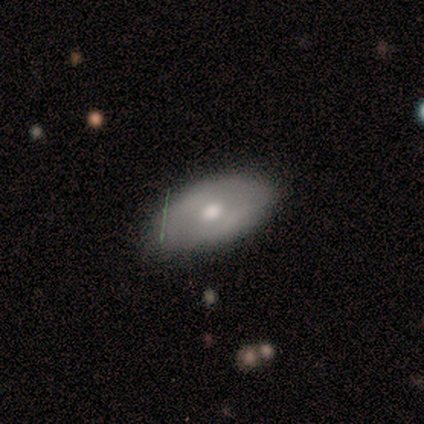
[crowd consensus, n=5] Q: Smooth or featured?
A: featured or disk (60%); runner-up: smooth (20%)
Q: Edge-on disk?
A: no (67%); runner-up: yes (33%)
Q: Bar?
A: no (100%)
Q: Spiral arms?
A: yes (100%)
Q: Spiral winding?
A: tight (50%); tied with: medium (50%)
Q: Spiral arm count?
A: can't tell (100%)
Q: Bulge size?
A: moderate (100%)
Q: Merging?
A: none (75%); runner-up: major disturbance (25%)